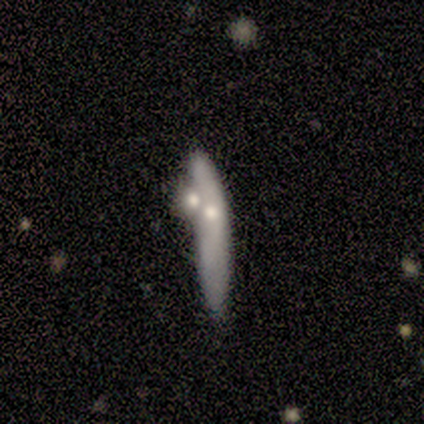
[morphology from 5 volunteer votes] This appears to be a smooth galaxy with no disk features (60%) that is cigar-shaped (100%). Merging: merger (40%).